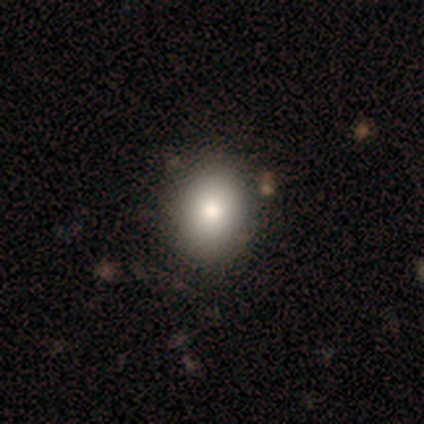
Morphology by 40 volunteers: A smooth galaxy with no disk features (80%) that is round (78%). Merging: none (46%).